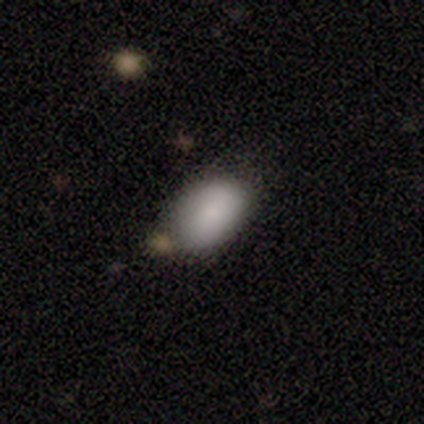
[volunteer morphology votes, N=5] Smooth or featured?
  - smooth: 100% *
  - featured or disk: 0%
  - star or artifact: 0%
How rounded?
  - in between: 100% *
  - round: 0%
  - cigar-shaped: 0%
Merging?
  - none: 60% *
  - minor disturbance: 20%
  - merger: 20%
  - major disturbance: 0%